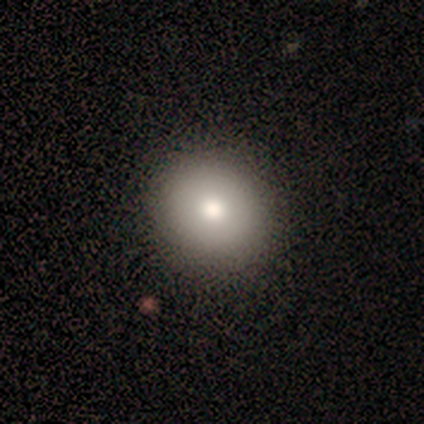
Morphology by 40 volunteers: smooth_or_featured: smooth (p=0.75) [alt: featured or disk p=0.12]
how_rounded: round (p=0.93) [alt: in between p=0.07]
merging: none (p=0.63) [alt: minor disturbance p=0.03]